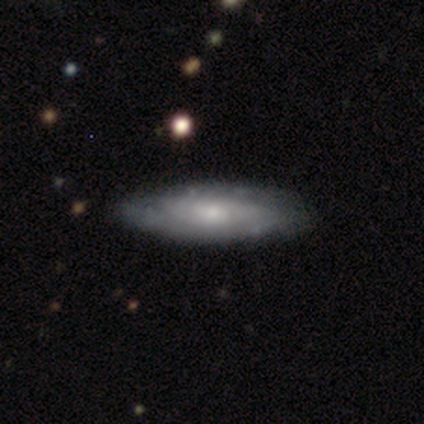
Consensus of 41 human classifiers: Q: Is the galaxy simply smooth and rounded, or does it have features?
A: featured or disk — 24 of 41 (59%).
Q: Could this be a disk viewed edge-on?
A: no — 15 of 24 (62%).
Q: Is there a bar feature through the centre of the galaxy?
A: no — 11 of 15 (73%).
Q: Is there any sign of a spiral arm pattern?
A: yes — 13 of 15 (87%).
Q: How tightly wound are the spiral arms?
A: tight — 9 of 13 (69%).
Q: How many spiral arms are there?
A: can't tell — 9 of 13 (69%).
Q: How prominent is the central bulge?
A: small — 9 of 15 (60%).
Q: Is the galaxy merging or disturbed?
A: none — 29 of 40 (72%).